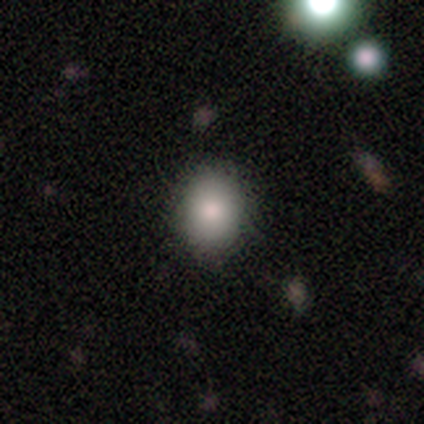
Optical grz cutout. It shows a smooth galaxy with no disk features (85%) that is round (55%). Merging: none (83%).